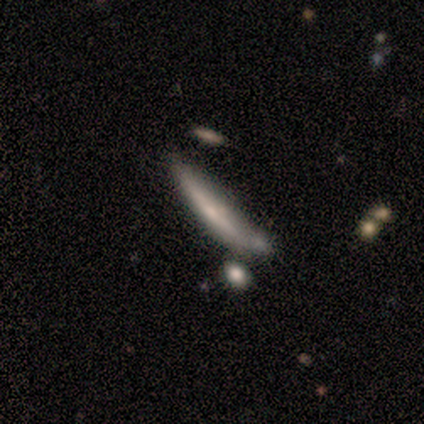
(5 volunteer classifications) This appears to be a smooth galaxy with no disk features (100%) that is cigar-shaped (80%). Merging: none (40%, tied with merger).